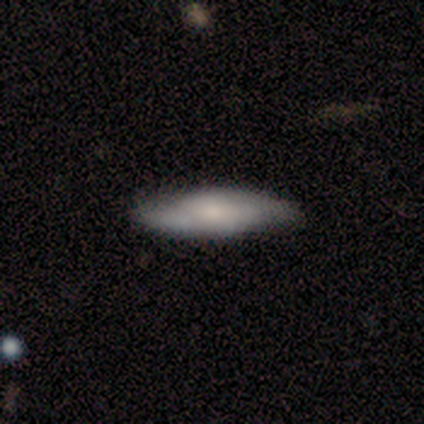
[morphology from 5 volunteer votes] Smooth or featured: featured or disk — 60% (smooth — 40%)
Edge-on disk: no — 67% (yes — 33%)
Bar: weak — 50% (tied with no — 50%)
Spiral arms: yes — 50% (tied with no — 50%)
Spiral winding: tight — 100%
Spiral arm count: can't tell — 100%
Bulge size: large — 50% (tied with moderate — 50%)
Merging: none — 80% (minor disturbance — 20%)